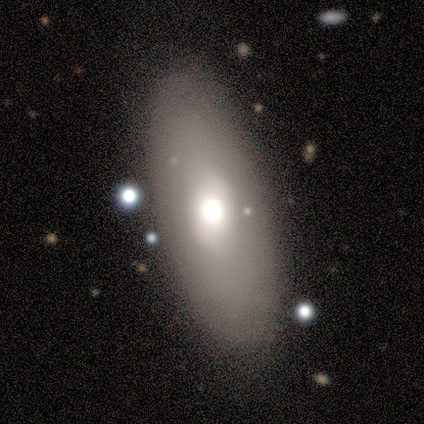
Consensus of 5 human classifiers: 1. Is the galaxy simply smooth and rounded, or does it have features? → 60% smooth, 20% featured or disk, 20% star or artifact.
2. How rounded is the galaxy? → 33% round (tied), 33% in between (tied), 33% cigar-shaped (tied).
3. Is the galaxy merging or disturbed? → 75% none, 25% merger, 0% minor disturbance, 0% major disturbance.